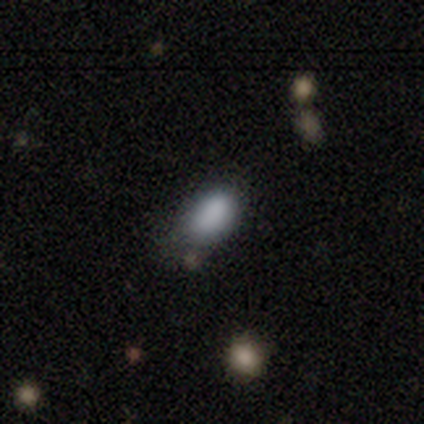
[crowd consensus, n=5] This is clearly a smooth galaxy (100%). How rounded: clearly in between (100%). Merging: likely none (60%).